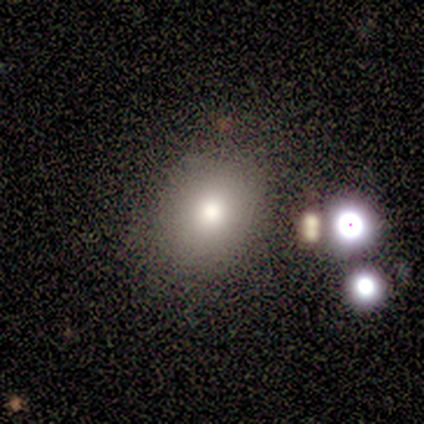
Overall: smooth (75%). How rounded: round (100%). Merging: none (75%).